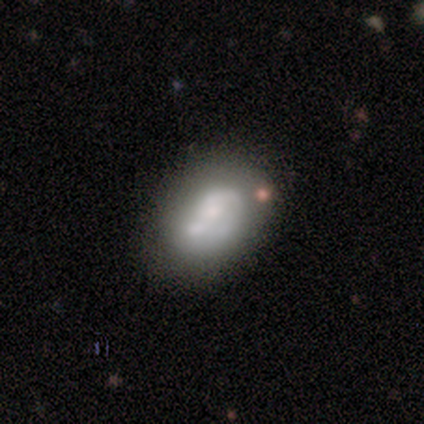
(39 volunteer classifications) A featured or disk galaxy (56%) with no bar (91%), no spiral arms (59%) and a small central bulge (36%). Merging: none (42%).